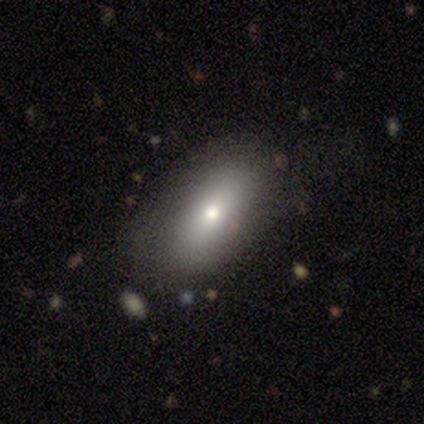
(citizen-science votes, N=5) Smooth or featured? 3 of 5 (60%) said smooth. How rounded? 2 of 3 (67%) said in between. Merging? 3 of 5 (60%) said none.